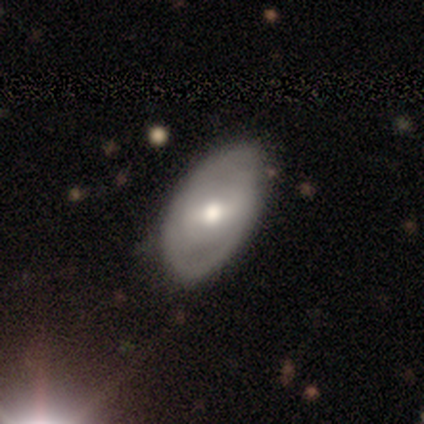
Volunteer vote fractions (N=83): Smooth or featured: smooth — 54% (featured or disk — 43%)
How rounded: in between — 96% (round — 4%)
Merging: none — 75% (minor disturbance — 21%)